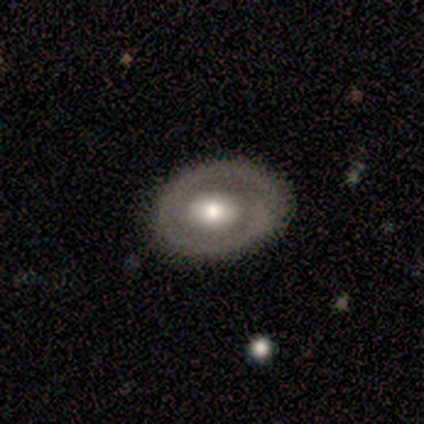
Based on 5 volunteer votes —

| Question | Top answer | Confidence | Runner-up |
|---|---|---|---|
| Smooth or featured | featured or disk | 80% | smooth (20%) |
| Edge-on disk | no | 100% | — |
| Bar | no | 75% | weak (25%) |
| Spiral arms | no | 75% | yes (25%) |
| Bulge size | moderate | 75% | large (25%) |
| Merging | none | 60% | minor disturbance (40%) |